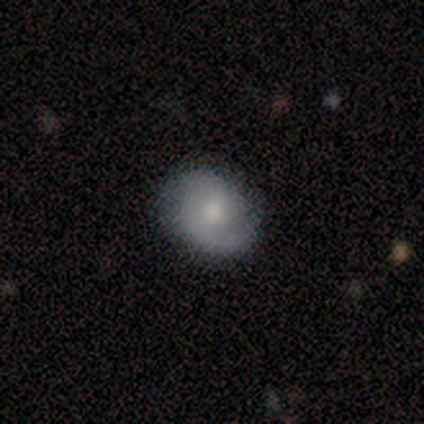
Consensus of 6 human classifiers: Smooth or featured? featured or disk (83%)
Edge-on disk? no (80%)
Bar? weak (50%, tied with no)
Spiral arms? yes (100%)
Spiral winding? tight (50%, tied with medium)
Spiral arm count? 2 (75%)
Bulge size? moderate (75%)
Merging? none (80%)